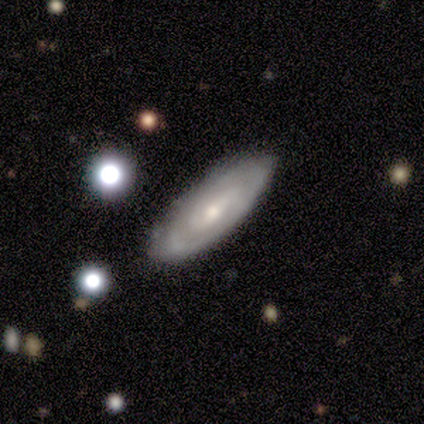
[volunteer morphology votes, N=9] smooth-or-featured: featured or disk: 67% | smooth: 33% | star or artifact: 0%
  disk-edge-on: no: 100% | yes: 0%
    bar: weak: 50% | no: 33% | strong: 17%
    has-spiral-arms: yes: 83% | no: 17%
      spiral-winding: tight: 80% | medium: 20% | loose: 0%
      spiral-arm-count: 3: 40% (tied) | can't tell: 40% (tied) | 2: 20% | 1: 0% | 4: 0% | more than 4: 0%
    bulge-size: small: 83% | moderate: 17% | dominant: 0% | large: 0% | none: 0%
  merging: none: 89% | minor disturbance: 11% | major disturbance: 0% | merger: 0%